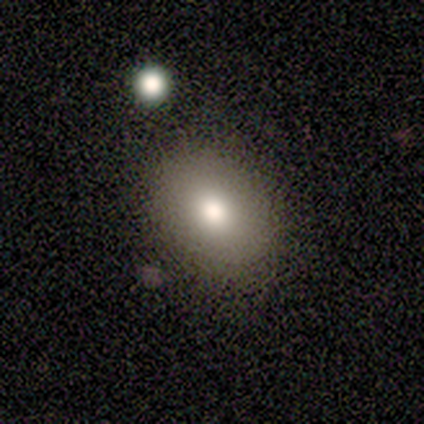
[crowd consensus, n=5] This appears to be a smooth galaxy with no disk features (80%) that is in between round and cigar-shaped (100%). Merging: none (100%).